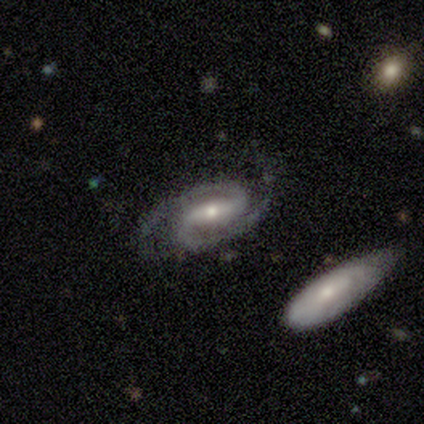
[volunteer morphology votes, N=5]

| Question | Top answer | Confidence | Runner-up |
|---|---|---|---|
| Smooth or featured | featured or disk | 100% | — |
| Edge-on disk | no | 100% | — |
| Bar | strong | 40% | tied: weak (40%) |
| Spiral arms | yes | 100% | — |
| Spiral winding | tight | 80% | loose (20%) |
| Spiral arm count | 2 | 100% | — |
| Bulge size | small | 60% | moderate (40%) |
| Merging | none | 100% | — |